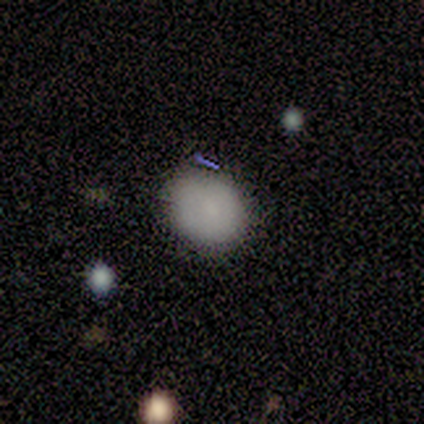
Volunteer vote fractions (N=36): This appears to be a smooth galaxy with no disk features (75%) that is round (56%). Merging: none (83%).